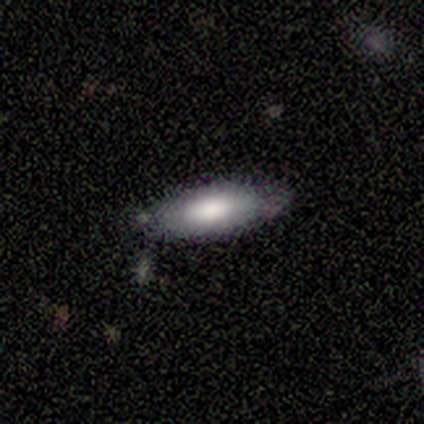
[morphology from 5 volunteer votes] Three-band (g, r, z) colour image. It shows a smooth galaxy with no disk features (80%) that is in between round and cigar-shaped (50%, tied with cigar-shaped). Merging: none (80%).